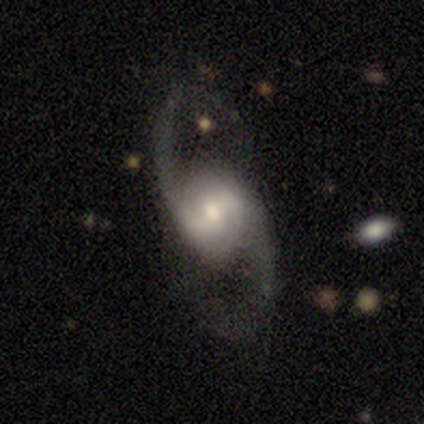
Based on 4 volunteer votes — smooth_or_featured: featured or disk (p=1.00)
disk_edge_on: no (p=1.00)
bar: weak (p=0.75) [alt: strong p=0.25]
has_spiral_arms: yes (p=1.00)
spiral_winding: medium (p=0.50) [tied with: loose p=0.50]
spiral_arm_count: 2 (p=1.00)
bulge_size: small (p=0.50) [alt: large p=0.25]
merging: none (p=1.00)